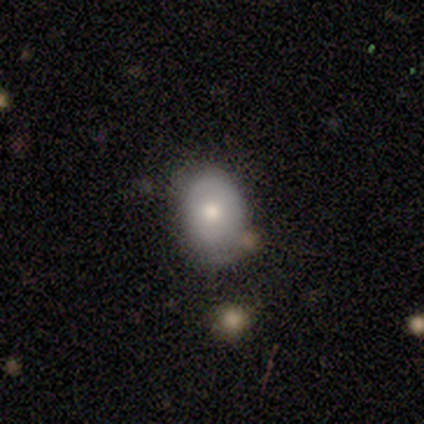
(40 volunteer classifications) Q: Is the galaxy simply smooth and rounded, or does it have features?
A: smooth — 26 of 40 (65%).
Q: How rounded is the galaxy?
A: in between — 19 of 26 (73%).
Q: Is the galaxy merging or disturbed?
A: none — 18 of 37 (49%).